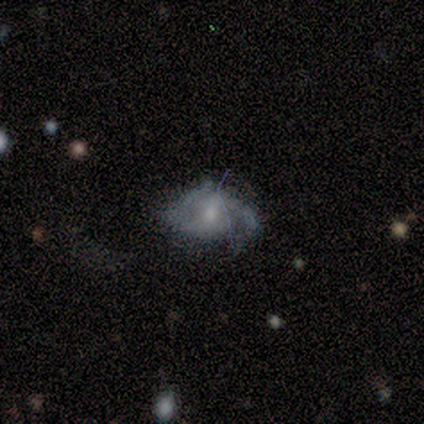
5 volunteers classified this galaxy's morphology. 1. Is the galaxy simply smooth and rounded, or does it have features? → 100% featured or disk, 0% smooth, 0% star or artifact.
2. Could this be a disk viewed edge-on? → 100% no, 0% yes.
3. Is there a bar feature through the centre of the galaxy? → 60% no, 40% weak, 0% strong.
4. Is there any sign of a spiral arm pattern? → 100% yes, 0% no.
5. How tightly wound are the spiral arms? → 60% tight, 40% loose, 0% medium.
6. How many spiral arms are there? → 40% 2, 20% 1, 20% 3, 20% can't tell, 0% 4, 0% more than 4.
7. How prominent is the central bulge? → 80% small, 20% moderate, 0% dominant, 0% large, 0% none.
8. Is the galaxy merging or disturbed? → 40% none (tied), 40% major disturbance (tied), 20% minor disturbance, 0% merger.